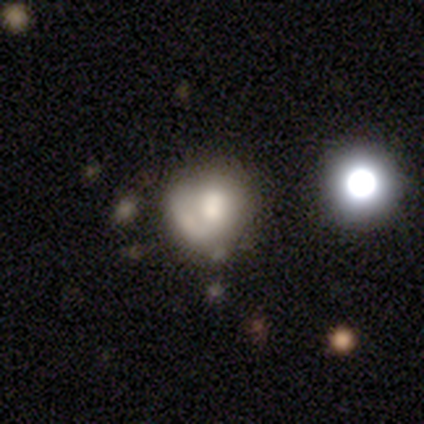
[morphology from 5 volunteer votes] Volunteers were most divided on "smooth or featured" (2-way tie): smooth: 40%, featured or disk: 40%, star or artifact: 20%. More confident: how rounded — round (100%); merging — major disturbance (75%).